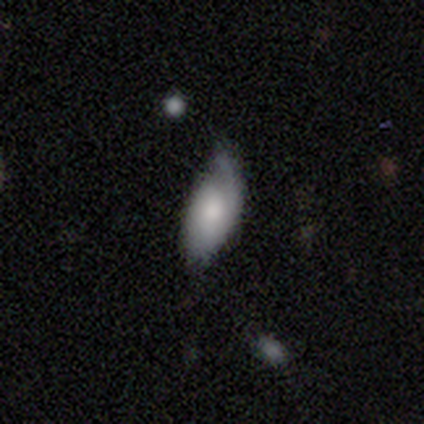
Smooth or featured: featured or disk — 52% (smooth — 44%)
Edge-on disk: no — 93% (yes — 7%)
Bar: no — 79% (weak — 21%)
Spiral arms: yes — 76% (no — 24%)
Spiral winding: medium — 41% (loose — 34%)
Spiral arm count: 1 — 55% (can't tell — 28%)
Bulge size: moderate — 50% (large — 21%)
Merging: minor disturbance — 32% (none — 12%)